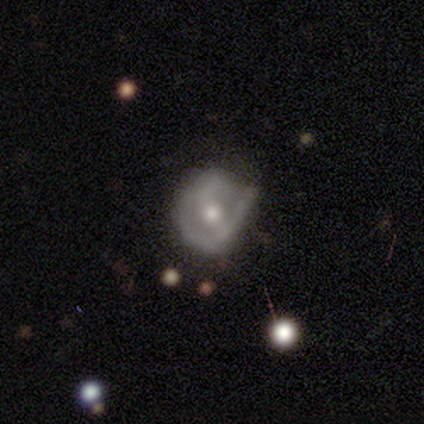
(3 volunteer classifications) Morphology: type=smooth (33%, tied with featured or disk and star or artifact); roundness=round (100%); merging=minor disturbance (100%).